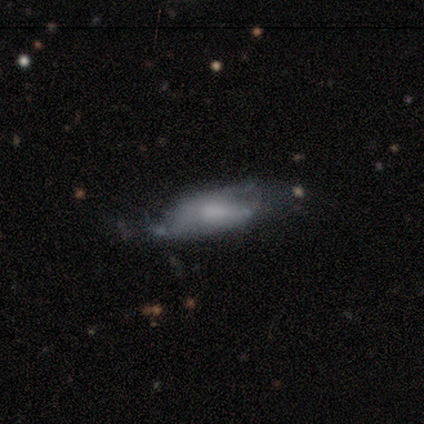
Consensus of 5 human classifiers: Smooth or featured? 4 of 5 (80%) said smooth. How rounded? 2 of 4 (50%) said in between. Merging? 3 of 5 (60%) said major disturbance.